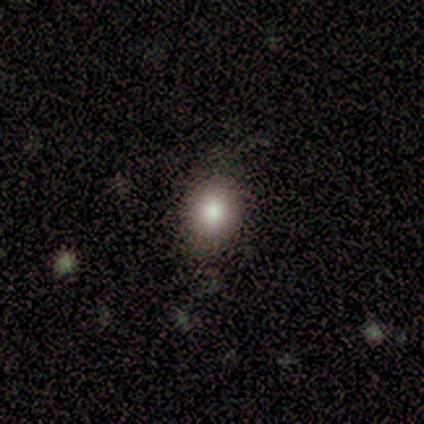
This appears to be a smooth galaxy with no disk features (60%) that is round (67%). Merging: none (100%).